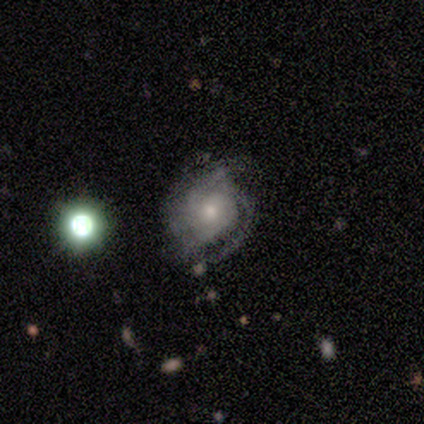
This appears to be a featured or disk galaxy (80%) with no bar (100%), 2 (50%) tight (75%) spiral arms (100%) and a small central bulge (75%). Merging: none (80%).